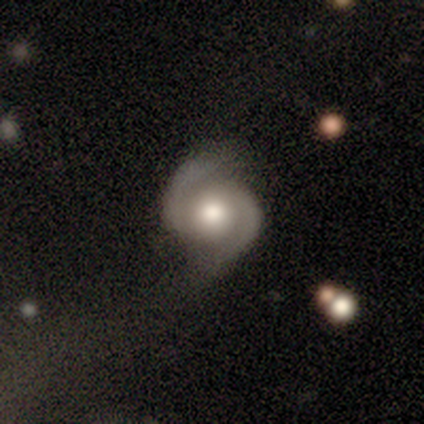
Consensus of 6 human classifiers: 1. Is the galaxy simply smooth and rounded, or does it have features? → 100% featured or disk, 0% smooth, 0% star or artifact.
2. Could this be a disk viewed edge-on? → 100% no, 0% yes.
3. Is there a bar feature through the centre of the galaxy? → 83% no, 17% weak, 0% strong.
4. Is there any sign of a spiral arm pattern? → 100% yes, 0% no.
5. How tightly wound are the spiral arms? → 67% medium, 33% tight, 0% loose.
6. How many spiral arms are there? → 100% 2, 0% 1, 0% 3, 0% 4, 0% more than 4, 0% can't tell.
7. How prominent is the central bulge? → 50% large (tied), 50% moderate (tied), 0% dominant, 0% small, 0% none.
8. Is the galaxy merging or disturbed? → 100% none, 0% minor disturbance, 0% major disturbance, 0% merger.